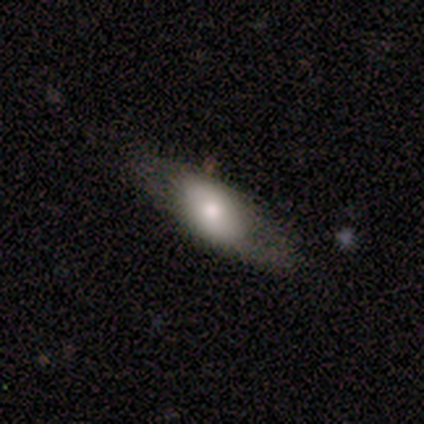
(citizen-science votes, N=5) Smooth or featured?
  - featured or disk: 60% *
  - smooth: 40%
  - star or artifact: 0%
Edge-on disk?
  - no: 67% *
  - yes: 33%
Bar?
  - no: 100% *
  - strong: 0%
  - weak: 0%
Spiral arms?
  - no: 100% *
  - yes: 0%
Bulge size?
  - dominant: 50% * (tied)
  - moderate: 50% * (tied)
  - large: 0%
  - small: 0%
  - none: 0%
Merging?
  - none: 80% *
  - minor disturbance: 20%
  - major disturbance: 0%
  - merger: 0%